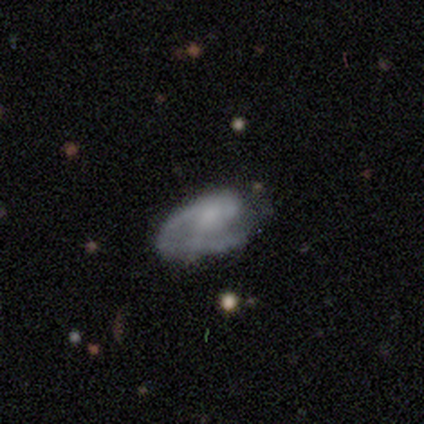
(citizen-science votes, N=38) smooth-or-featured: featured or disk: 84% | smooth: 13% | star or artifact: 3%
  disk-edge-on: no: 100% | yes: 0%
    bar: no: 84% | weak: 16% | strong: 0%
    has-spiral-arms: yes: 62% | no: 38%
      spiral-winding: medium: 50% | tight: 30% | loose: 20%
      spiral-arm-count: 1: 70% | 2: 15% | can't tell: 15% | 3: 0% | 4: 0% | more than 4: 0%
    bulge-size: none: 47% | small: 41% | moderate: 9% | large: 3% | dominant: 0%
  merging: none: 54% | major disturbance: 16% | minor disturbance: 14% | merger: 0%